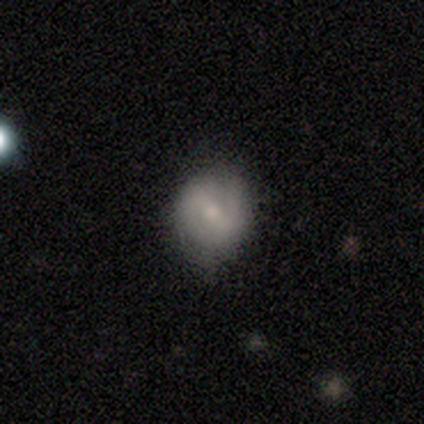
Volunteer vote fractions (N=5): Smooth or featured? smooth (40%, tied with featured or disk)
How rounded? round (100%)
Merging? none (75%)